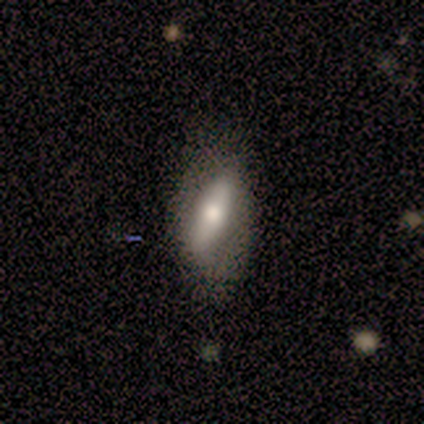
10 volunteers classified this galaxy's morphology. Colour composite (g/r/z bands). It shows a smooth galaxy with no disk features (60%) that is in between round and cigar-shaped (67%). Merging: none (60%).